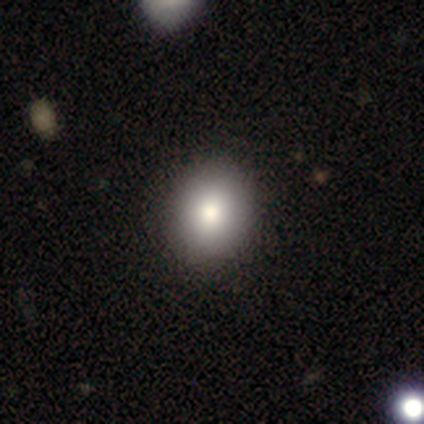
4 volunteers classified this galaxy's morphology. smooth_or_featured: smooth (p=0.75) [alt: star or artifact p=0.25]
how_rounded: in between (p=0.67) [alt: round p=0.33]
merging: none (p=1.00)